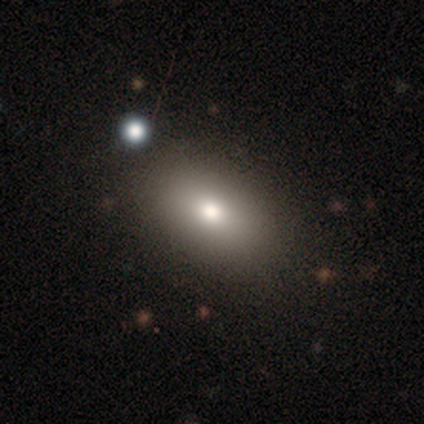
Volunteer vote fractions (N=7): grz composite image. It shows a smooth galaxy with no disk features (100%) that is in between round and cigar-shaped (100%). Merging: none (71%).